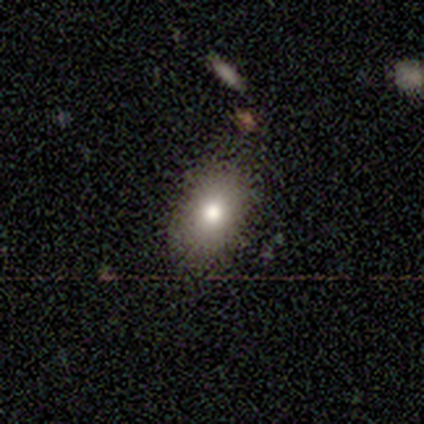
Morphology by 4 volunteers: Smooth or featured? 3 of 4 (75%) said smooth. How rounded? 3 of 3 (100%) said in between. Merging? 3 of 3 (100%) said none.